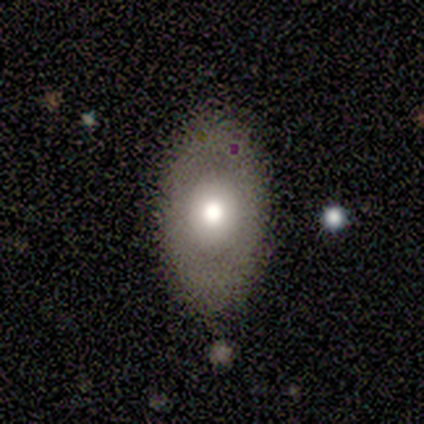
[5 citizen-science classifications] A smooth galaxy with no disk features (100%) that is in between round and cigar-shaped (80%). Merging: none (60%).